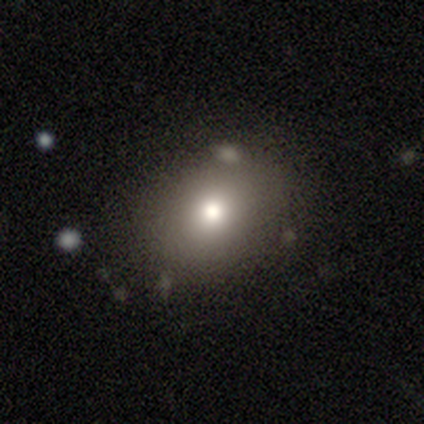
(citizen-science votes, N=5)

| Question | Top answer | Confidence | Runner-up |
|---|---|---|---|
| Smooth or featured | smooth | 100% | — |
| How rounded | round | 60% | in between (40%) |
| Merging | none | 100% | — |